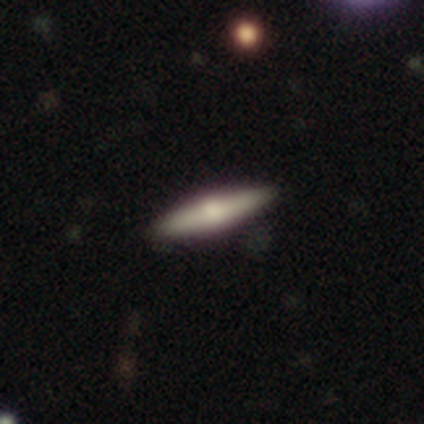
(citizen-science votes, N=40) A featured or disk galaxy (52%) viewed edge-on (95%) with a rounded central bulge (95%). Merging: none (89%).